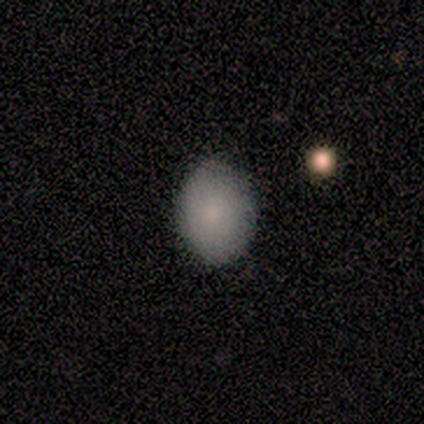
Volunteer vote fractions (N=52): A smooth galaxy with no disk features (79%) that is in between round and cigar-shaped (78%).

Vote fractions:
- Smooth or featured? smooth: 79% / featured or disk: 13% / star or artifact: 8%
- How rounded? in between: 78% / round: 20% / cigar-shaped: 2%
- Merging? none: 88% / minor disturbance: 8% / merger: 4% / major disturbance: 0%